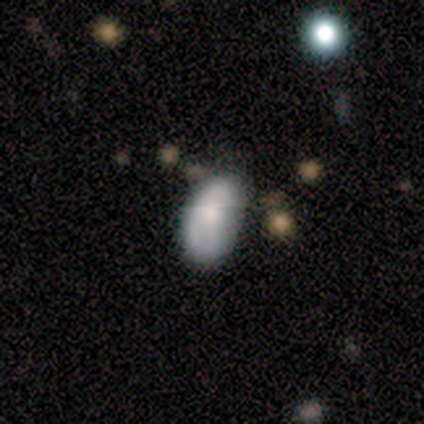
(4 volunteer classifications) A smooth galaxy with no disk features (50%, tied with featured or disk) that is in between round and cigar-shaped (100%).

Vote fractions:
- Smooth or featured? smooth: 50% (tied) / featured or disk: 50% (tied) / star or artifact: 0%
- How rounded? in between: 100% / round: 0% / cigar-shaped: 0%
- Merging? none: 75% / minor disturbance: 25% / major disturbance: 0% / merger: 0%